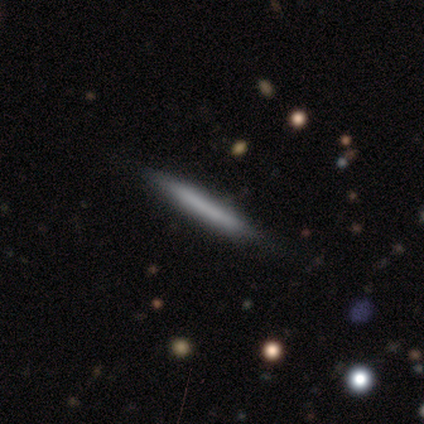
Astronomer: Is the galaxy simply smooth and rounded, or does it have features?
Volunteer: smooth — 51% (runner-up: featured or disk, 44%).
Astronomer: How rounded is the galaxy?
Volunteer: cigar-shaped — 95%.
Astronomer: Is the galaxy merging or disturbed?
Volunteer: none — 95%.